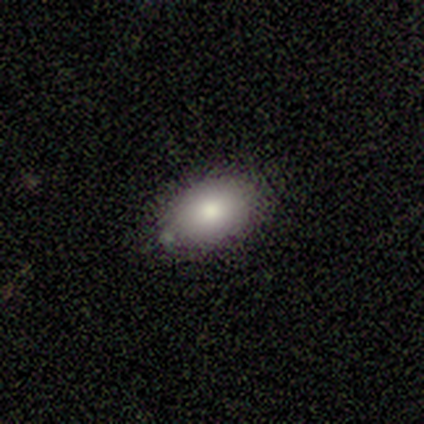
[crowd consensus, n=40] Smooth or featured? 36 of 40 (90%) said smooth. How rounded? 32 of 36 (89%) said in between. Merging? 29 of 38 (76%) said none.